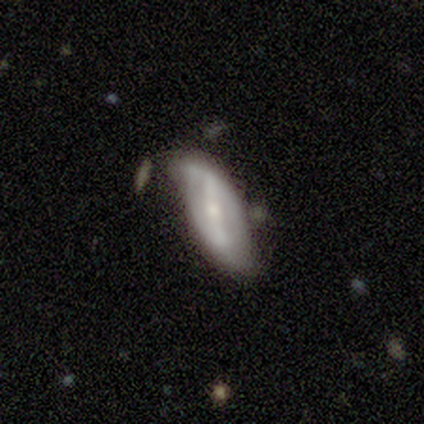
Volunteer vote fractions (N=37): Smooth or featured? featured or disk (70%)
Edge-on disk? no (96%)
Bar? weak (48%)
Spiral arms? yes (72%)
Spiral winding? loose (72%)
Spiral arm count? 2 (83%)
Bulge size? small (72%)
Merging? minor disturbance (40%)